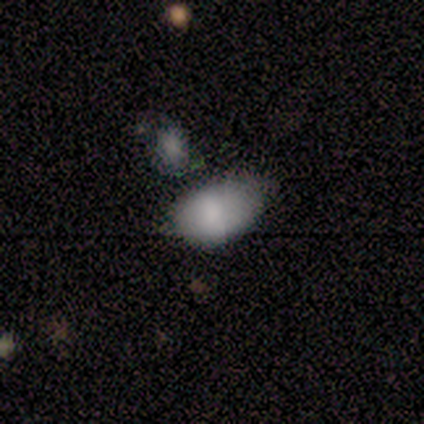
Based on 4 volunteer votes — Q: Smooth or featured?
A: smooth (100%)
Q: How rounded?
A: in between (100%)
Q: Merging?
A: none (50%); runner-up: minor disturbance (25%)